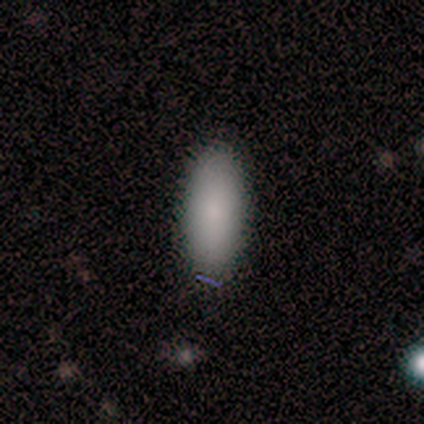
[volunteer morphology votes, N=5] smooth-or-featured: smooth: 100% | featured or disk: 0% | star or artifact: 0%
  how-rounded: in between: 80% | cigar-shaped: 20% | round: 0%
  merging: none: 100% | minor disturbance: 0% | major disturbance: 0% | merger: 0%